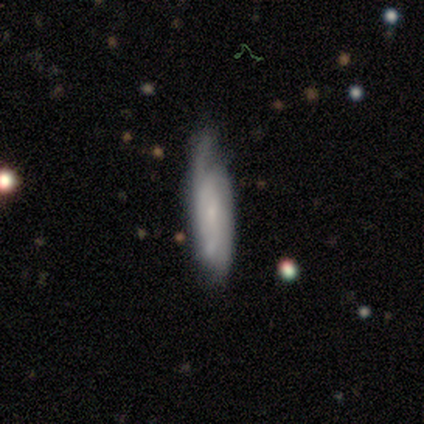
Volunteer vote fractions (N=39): A featured or disk galaxy (67%) with no bar (75%), medium (64%) spiral arms (88%) and a small central bulge (50%). Merging: none (71%).